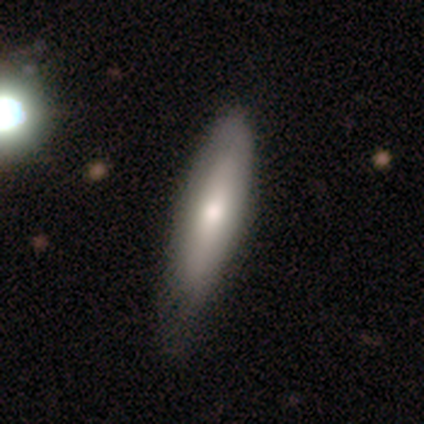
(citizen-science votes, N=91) This is likely a smooth galaxy (64%). How rounded: likely cigar-shaped (60%). Merging: possibly none (52%).